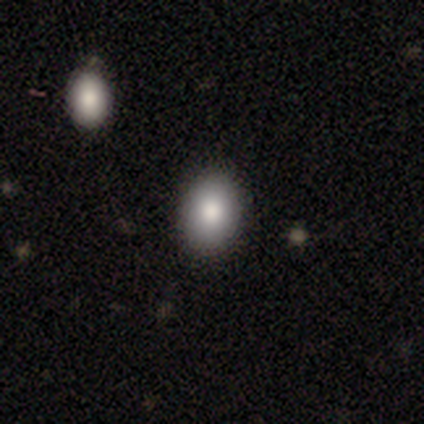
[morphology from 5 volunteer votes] smooth-or-featured: smooth: 100% | featured or disk: 0% | star or artifact: 0%
  how-rounded: in between: 100% | round: 0% | cigar-shaped: 0%
  merging: none: 100% | minor disturbance: 0% | major disturbance: 0% | merger: 0%